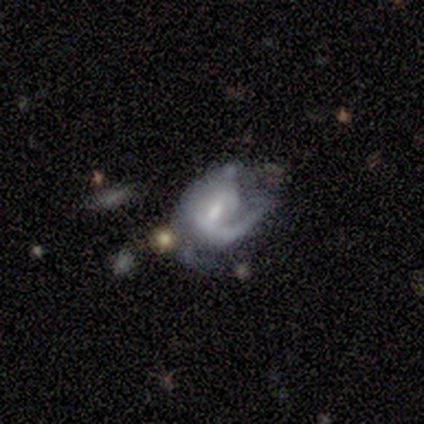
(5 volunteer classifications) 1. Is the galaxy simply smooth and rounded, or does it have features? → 80% featured or disk, 20% smooth, 0% star or artifact.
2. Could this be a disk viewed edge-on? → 100% no, 0% yes.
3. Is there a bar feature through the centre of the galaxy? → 50% weak, 25% strong, 25% no.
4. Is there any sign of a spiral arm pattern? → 75% yes, 25% no.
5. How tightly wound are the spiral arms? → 33% tight (tied), 33% medium (tied), 33% loose (tied).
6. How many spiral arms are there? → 67% can't tell, 33% 2, 0% 1, 0% 3, 0% 4, 0% more than 4.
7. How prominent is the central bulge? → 75% moderate, 25% small, 0% dominant, 0% large, 0% none.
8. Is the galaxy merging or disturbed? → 40% none (tied), 40% merger (tied), 20% minor disturbance, 0% major disturbance.